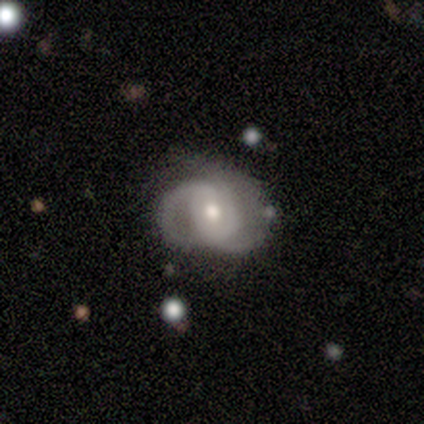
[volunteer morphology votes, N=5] Overall: featured or disk (100%). Edge-on disk: no (100%). Bar: no (60%; weak 40%). Spiral arms: yes (100%). Spiral arm count: 2 (80%). Spiral winding: medium (60%; tight 40%). Bulge size: small (60%; moderate 40%). Merging: none (60%; minor disturbance 20%).